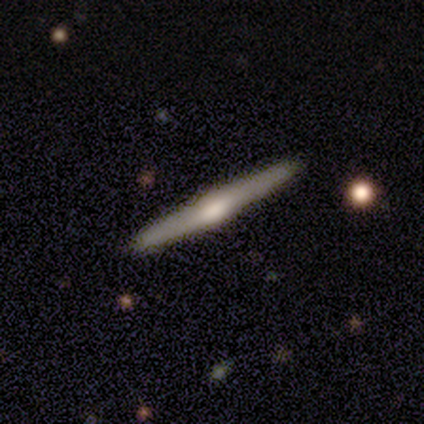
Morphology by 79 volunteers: smooth_or_featured: featured or disk (p=0.72) [alt: smooth p=0.27]
disk_edge_on: yes (p=0.98) [alt: no p=0.02]
edge_on_bulge: rounded (p=0.84) [alt: boxy p=0.09]
merging: none (p=0.45) [alt: minor disturbance p=0.05]